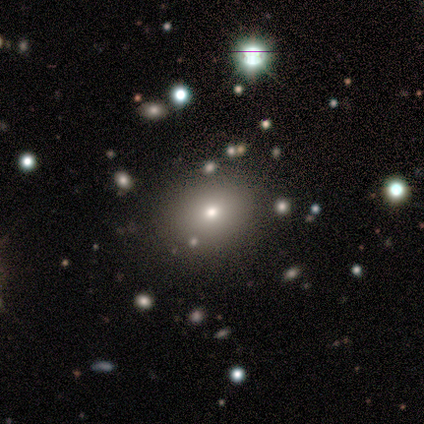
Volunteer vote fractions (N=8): This appears to be a smooth galaxy with no disk features (88%) that is in between round and cigar-shaped (57%). Merging: none (86%).